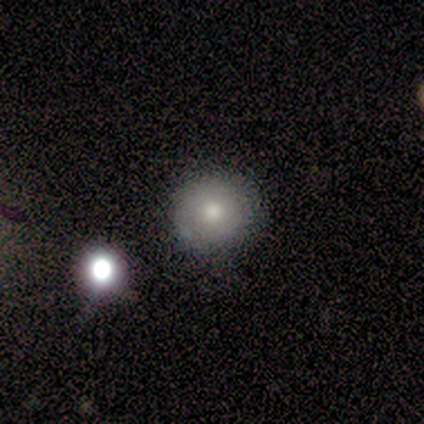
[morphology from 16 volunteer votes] Overall: smooth (75%). How rounded: round (100%). Merging: none (87%).